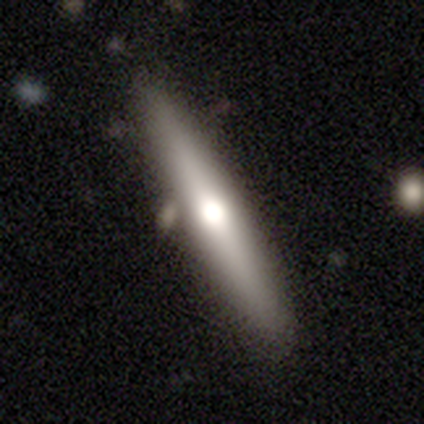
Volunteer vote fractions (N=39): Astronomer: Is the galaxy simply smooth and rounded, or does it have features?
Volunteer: featured or disk — 51% (runner-up: smooth, 33%).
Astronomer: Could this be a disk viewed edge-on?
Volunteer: yes — 100%.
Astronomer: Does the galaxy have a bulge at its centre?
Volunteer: rounded — 90%.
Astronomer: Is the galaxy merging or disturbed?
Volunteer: none — 73%.